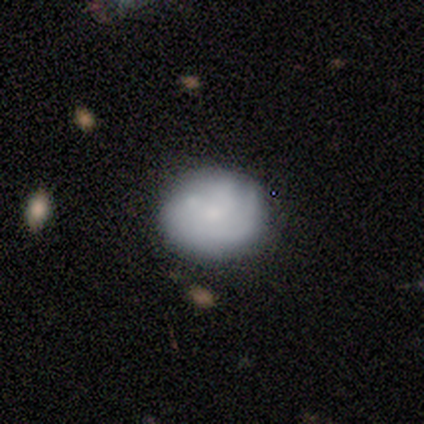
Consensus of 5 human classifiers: Overall: featured or disk (60%; smooth 40%). Edge-on disk: no (100%). Bar: no (100%). Spiral arms: no (67%; yes 33%). Bulge size: small (67%; moderate 33%). Merging: none (80%).